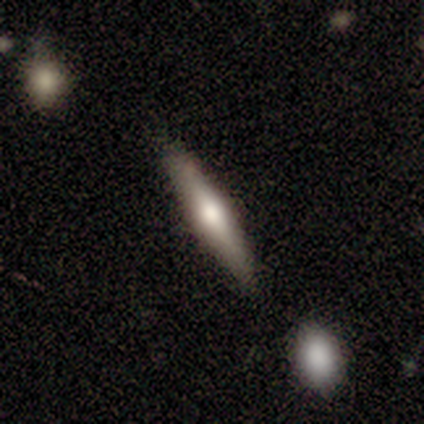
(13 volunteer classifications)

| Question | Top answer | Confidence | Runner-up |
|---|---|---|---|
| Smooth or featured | featured or disk | 46% | smooth (38%) |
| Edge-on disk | yes | 100% | — |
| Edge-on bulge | rounded | 100% | — |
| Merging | none | 73% | minor disturbance (27%) |